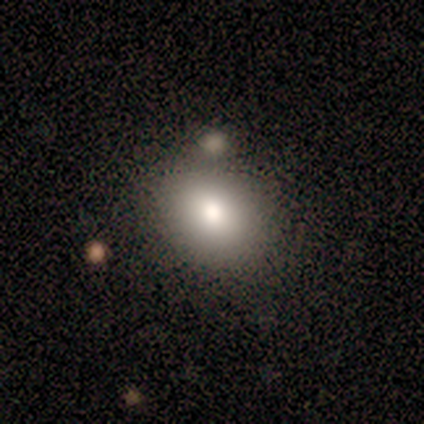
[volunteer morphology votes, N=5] Volunteers were most divided on "how rounded": round: 60%, in between: 40%, cigar-shaped: 0%. More confident: smooth or featured — smooth (100%); merging — none (60%).